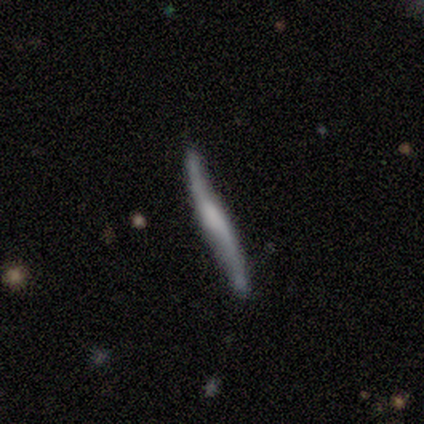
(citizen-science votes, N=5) This is likely a featured or disk galaxy (60%). It is clearly viewed edge-on (100%). Edge-on bulge: likely rounded (67%). Merging: possibly none (50%).